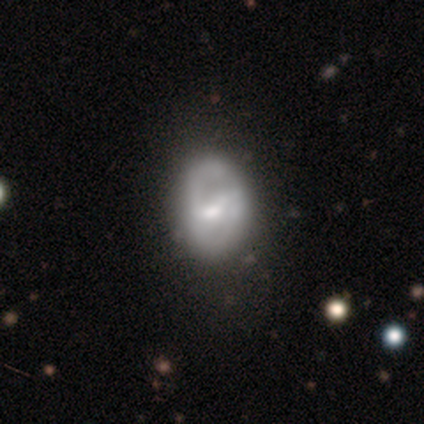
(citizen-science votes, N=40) Morphology: type=featured or disk (60%); edge-on=no (100%); bar=weak (54%); spiral arms=yes (75%); winding=medium (50%); arm count=2 (89%); bulge=moderate (62%); merging=none (31%).